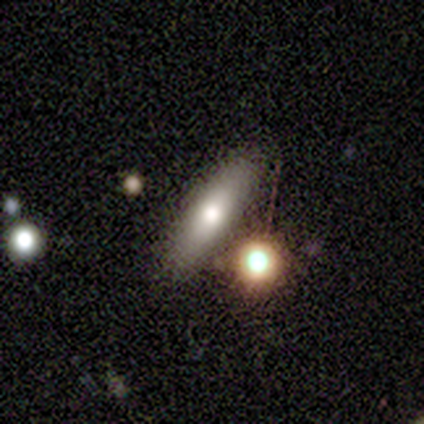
Smooth or featured? 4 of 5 (80%) said smooth. How rounded? 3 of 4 (75%) said cigar-shaped. Merging? 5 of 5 (100%) said none.